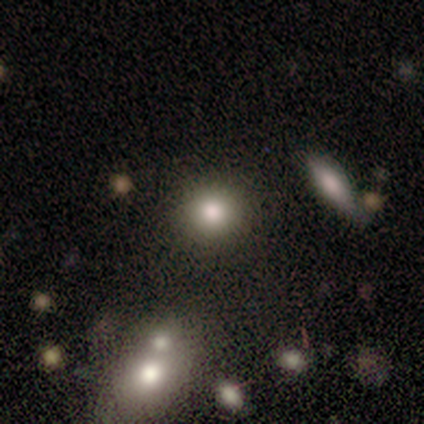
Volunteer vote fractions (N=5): Smooth or featured? 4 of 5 (80%) said smooth. How rounded? 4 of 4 (100%) said round. Merging? 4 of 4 (100%) said none.